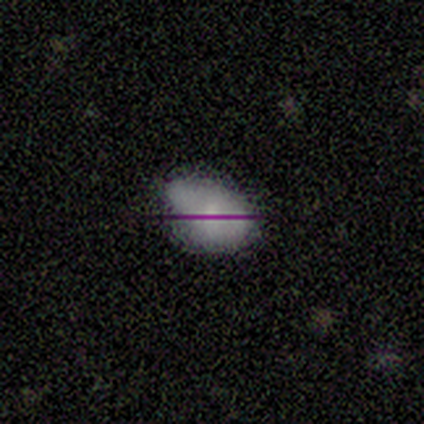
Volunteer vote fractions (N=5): Smooth or featured? 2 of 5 (40%, tied with featured or disk) said smooth. How rounded? 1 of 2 (50%, tied with in between) said round. Merging? 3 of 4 (75%) said minor disturbance.